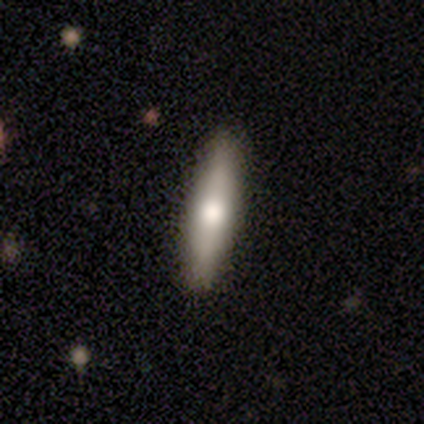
This is likely a smooth galaxy (60%). How rounded: clearly cigar-shaped (100%). Merging: likely none (75%).